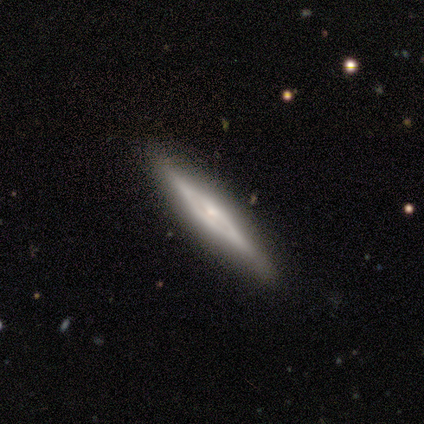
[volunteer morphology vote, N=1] smooth-or-featured: smooth: 100% | featured or disk: 0% | star or artifact: 0%
  how-rounded: cigar-shaped: 100% | round: 0% | in between: 0%
  merging: none: 100% | minor disturbance: 0% | major disturbance: 0% | merger: 0%